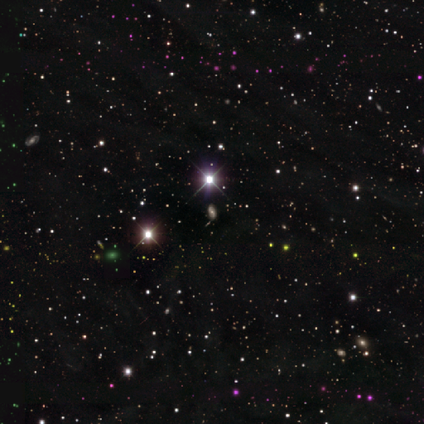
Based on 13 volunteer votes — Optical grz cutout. It shows a star or artifact, not a galaxy (54%).